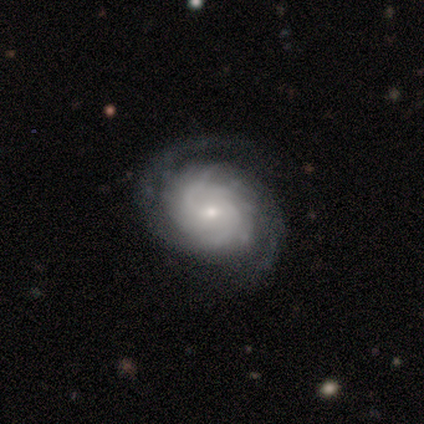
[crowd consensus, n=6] featured or disk 100%, smooth 0%, star or artifact 0%. Down the decision tree: edge-on disk — no (100%); bar — no (83%); spiral arms — yes (100%); spiral arm count — 2 (67%); spiral winding — tight (67%); bulge size — small (50%); merging — none (100%).